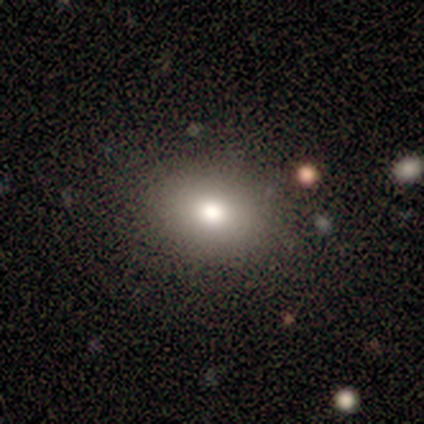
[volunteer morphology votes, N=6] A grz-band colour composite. It shows a smooth galaxy with no disk features (67%) that is in between round and cigar-shaped (75%). Merging: none (100%).